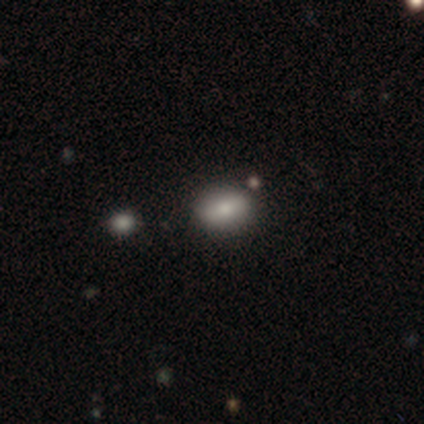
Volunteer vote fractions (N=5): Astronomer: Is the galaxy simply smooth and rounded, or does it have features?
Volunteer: smooth — 80%.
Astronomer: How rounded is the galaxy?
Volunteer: in between — 75%.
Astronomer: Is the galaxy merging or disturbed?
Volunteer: none — 75%.